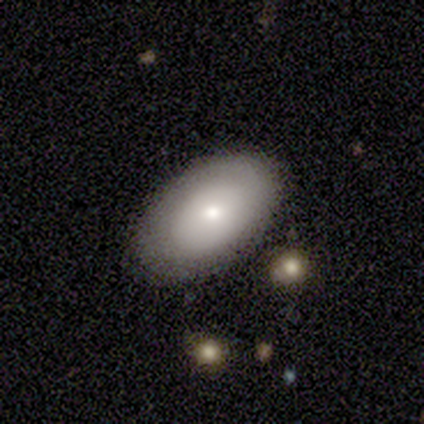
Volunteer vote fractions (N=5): Q: Smooth or featured?
A: smooth (100%)
Q: How rounded?
A: in between (100%)
Q: Merging?
A: none (60%); runner-up: minor disturbance (40%)